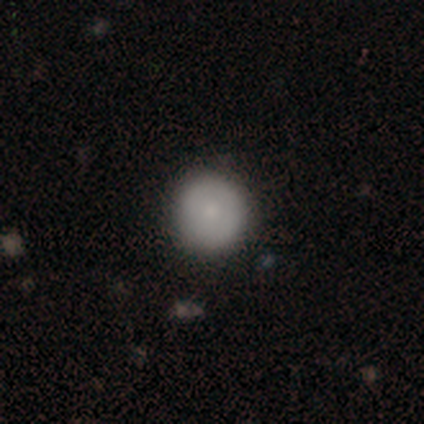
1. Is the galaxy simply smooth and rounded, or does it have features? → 73% smooth, 25% featured or disk, 2% star or artifact.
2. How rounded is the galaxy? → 93% round, 5% in between, 2% cigar-shaped.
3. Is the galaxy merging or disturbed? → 92% none, 6% minor disturbance, 1% merger, 0% major disturbance.